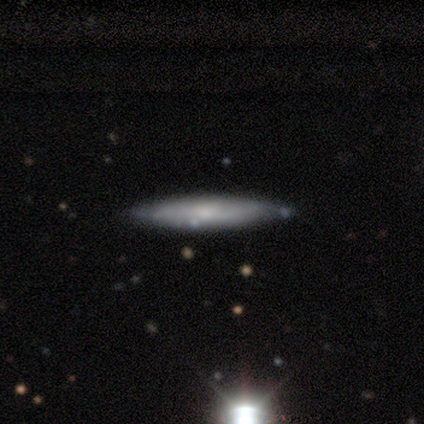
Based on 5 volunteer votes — Smooth or featured?
  - featured or disk: 60% *
  - smooth: 40%
  - star or artifact: 0%
Edge-on disk?
  - yes: 100% *
  - no: 0%
Edge-on bulge?
  - rounded: 67% *
  - none: 33%
  - boxy: 0%
Merging?
  - none: 80% *
  - minor disturbance: 20%
  - major disturbance: 0%
  - merger: 0%